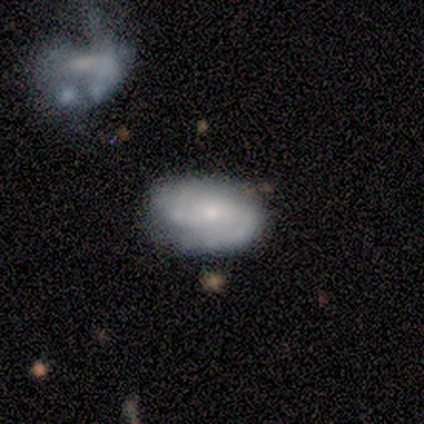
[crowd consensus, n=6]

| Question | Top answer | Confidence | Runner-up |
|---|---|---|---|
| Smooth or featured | featured or disk | 100% | — |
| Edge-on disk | no | 100% | — |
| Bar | no | 83% | weak (17%) |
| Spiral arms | yes | 100% | — |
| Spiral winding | medium | 100% | — |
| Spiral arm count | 2 | 67% | can't tell (33%) |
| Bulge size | small | 100% | — |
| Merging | none | 67% | minor disturbance (33%) |